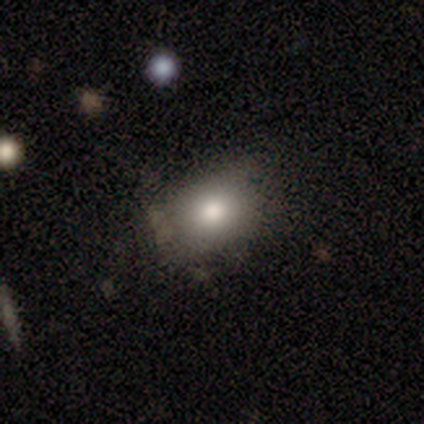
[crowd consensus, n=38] A smooth galaxy with no disk features (76%) that is in between round and cigar-shaped (66%). Merging: none (69%).